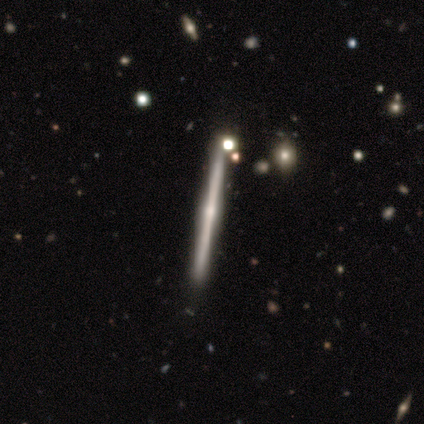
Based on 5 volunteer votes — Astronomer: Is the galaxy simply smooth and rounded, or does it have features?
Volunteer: featured or disk — 100%.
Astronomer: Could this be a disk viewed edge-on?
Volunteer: yes — 100%.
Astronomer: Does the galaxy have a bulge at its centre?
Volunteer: rounded — 100%.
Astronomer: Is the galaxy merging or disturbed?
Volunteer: minor disturbance — 60% (runner-up: none, 40%).